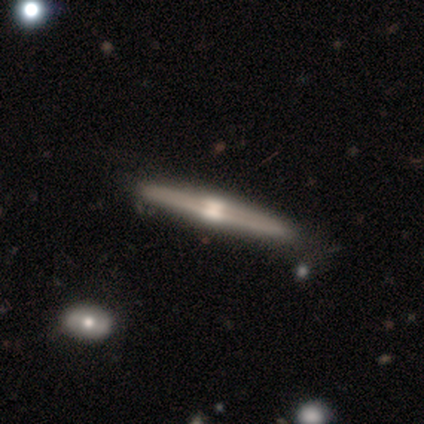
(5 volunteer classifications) Smooth or featured? 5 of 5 (100%) said featured or disk. Edge-on disk? 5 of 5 (100%) said yes. Edge-on bulge? 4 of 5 (80%) said rounded. Merging? 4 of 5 (80%) said none.